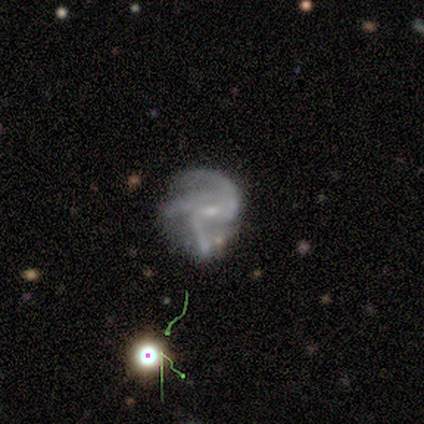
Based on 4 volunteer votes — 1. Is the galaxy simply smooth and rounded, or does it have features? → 50% featured or disk, 25% smooth, 25% star or artifact.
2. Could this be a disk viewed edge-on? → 100% no, 0% yes.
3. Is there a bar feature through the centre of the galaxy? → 50% weak (tied), 50% no (tied), 0% strong.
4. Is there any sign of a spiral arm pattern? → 100% yes, 0% no.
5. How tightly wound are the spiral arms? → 100% loose, 0% tight, 0% medium.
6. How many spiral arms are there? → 50% 2 (tied), 50% 3 (tied), 0% 1, 0% 4, 0% more than 4, 0% can't tell.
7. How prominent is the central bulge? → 50% moderate (tied), 50% small (tied), 0% dominant, 0% large, 0% none.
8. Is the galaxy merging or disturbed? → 100% minor disturbance, 0% none, 0% major disturbance, 0% merger.